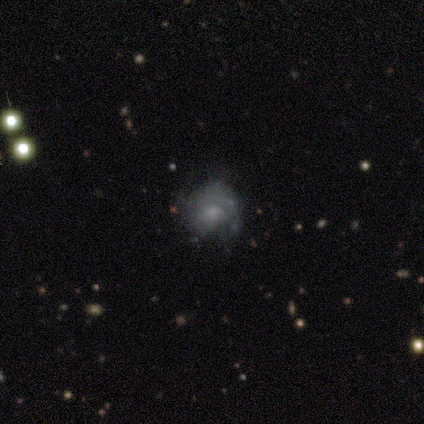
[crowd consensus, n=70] Smooth or featured?
  - featured or disk: 56% *
  - smooth: 33%
  - star or artifact: 11%
Edge-on disk?
  - no: 100% *
  - yes: 0%
Bar?
  - no: 92% *
  - weak: 8%
  - strong: 0%
Spiral arms?
  - yes: 54% *
  - no: 46%
Spiral winding?
  - tight: 57% *
  - medium: 33%
  - loose: 10%
Spiral arm count?
  - can't tell: 48% *
  - 1: 38%
  - 2: 14%
  - 3: 0%
  - 4: 0%
  - more than 4: 0%
Bulge size?
  - moderate: 38% *
  - small: 33%
  - none: 21%
  - large: 8%
  - dominant: 0%
Merging?
  - none: 61% *
  - minor disturbance: 24%
  - major disturbance: 15%
  - merger: 0%